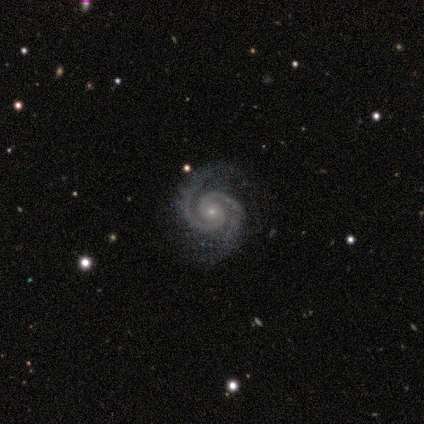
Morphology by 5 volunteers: Smooth or featured?
  - featured or disk: 100% *
  - smooth: 0%
  - star or artifact: 0%
Edge-on disk?
  - no: 100% *
  - yes: 0%
Bar?
  - no: 80% *
  - weak: 20%
  - strong: 0%
Spiral arms?
  - yes: 100% *
  - no: 0%
Spiral winding?
  - tight: 80% *
  - medium: 20%
  - loose: 0%
Spiral arm count?
  - 2: 100% *
  - 1: 0%
  - 3: 0%
  - 4: 0%
  - more than 4: 0%
  - can't tell: 0%
Bulge size?
  - small: 100% *
  - dominant: 0%
  - large: 0%
  - moderate: 0%
  - none: 0%
Merging?
  - none: 100% *
  - minor disturbance: 0%
  - major disturbance: 0%
  - merger: 0%